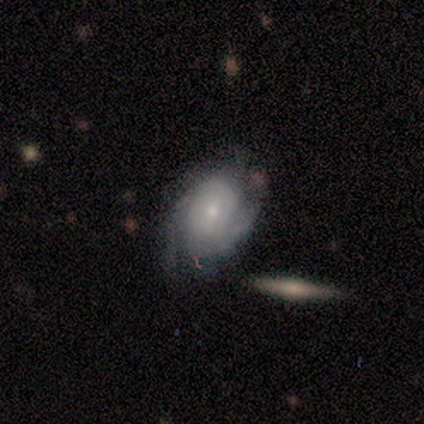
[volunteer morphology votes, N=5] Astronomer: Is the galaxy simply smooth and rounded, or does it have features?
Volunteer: featured or disk — 80%.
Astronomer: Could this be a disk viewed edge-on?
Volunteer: no — 100%.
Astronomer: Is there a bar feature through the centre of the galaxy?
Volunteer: no — 75%.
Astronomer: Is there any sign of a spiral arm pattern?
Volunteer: yes — 100%.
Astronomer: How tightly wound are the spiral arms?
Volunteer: tight — 75%.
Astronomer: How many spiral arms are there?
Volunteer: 2 — 25%, tied with 3, 4 and can't tell at 25%.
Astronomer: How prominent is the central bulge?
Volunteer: small — 100%.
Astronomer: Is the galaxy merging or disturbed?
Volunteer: none — 80%.